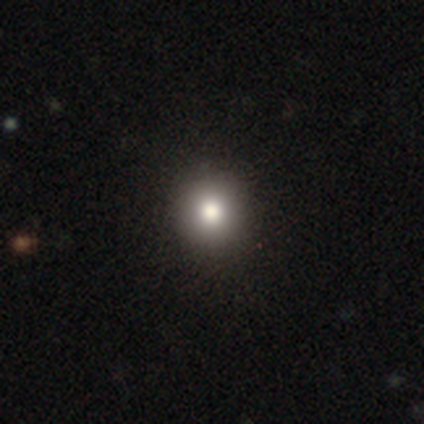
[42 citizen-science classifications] Q: Smooth or featured?
A: smooth (76%); runner-up: star or artifact (14%)
Q: How rounded?
A: round (91%); runner-up: in between (9%)
Q: Merging?
A: none (58%); runner-up: minor disturbance (3%)